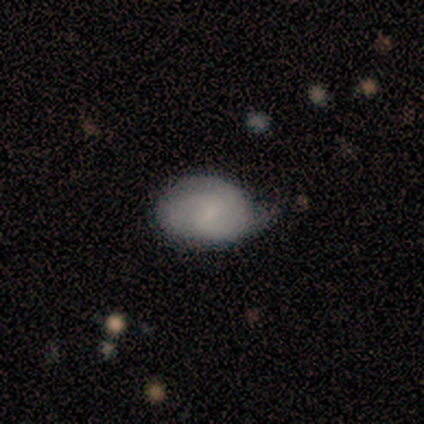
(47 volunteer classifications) smooth-or-featured: smooth: 57% | featured or disk: 38% | star or artifact: 4%
  how-rounded: in between: 96% | round: 4% | cigar-shaped: 0%
  merging: none: 47% | minor disturbance: 40% | major disturbance: 11% | merger: 2%